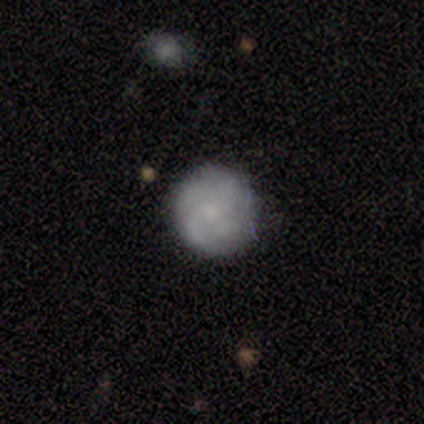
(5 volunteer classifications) Volunteers were most divided on "smooth or featured": smooth: 60%, featured or disk: 40%, star or artifact: 0%. More confident: how rounded — round (100%); merging — none (100%).